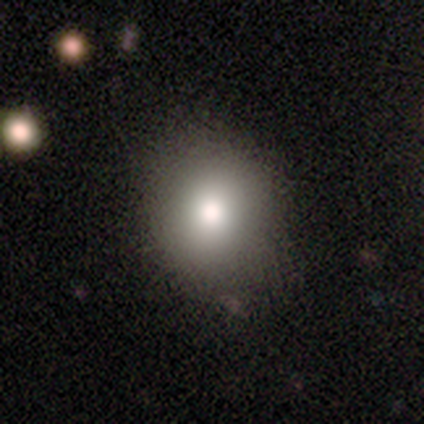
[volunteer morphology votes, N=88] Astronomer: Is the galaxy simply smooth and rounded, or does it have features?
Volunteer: smooth — 77%.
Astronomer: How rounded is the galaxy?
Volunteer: round — 84%.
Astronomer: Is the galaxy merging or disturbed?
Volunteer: none — 83%.